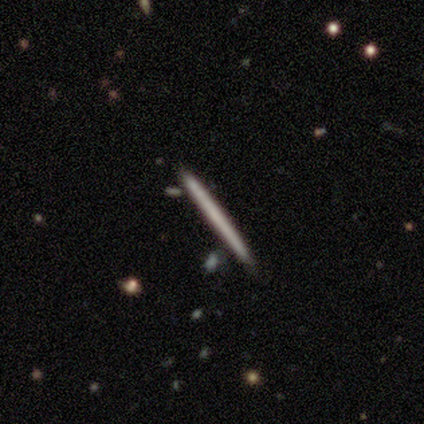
Smooth or featured?
  - smooth: 60% *
  - featured or disk: 20%
  - star or artifact: 20%
How rounded?
  - cigar-shaped: 100% *
  - round: 0%
  - in between: 0%
Merging?
  - none: 75% *
  - merger: 25%
  - minor disturbance: 0%
  - major disturbance: 0%